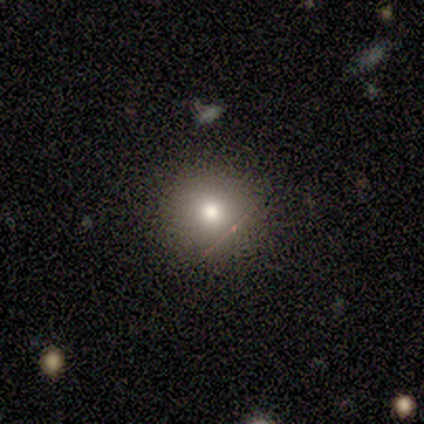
Smooth or featured?
  - smooth: 100% *
  - featured or disk: 0%
  - star or artifact: 0%
How rounded?
  - round: 100% *
  - in between: 0%
  - cigar-shaped: 0%
Merging?
  - none: 100% *
  - minor disturbance: 0%
  - major disturbance: 0%
  - merger: 0%